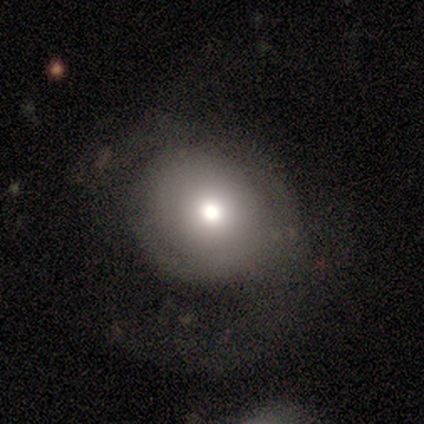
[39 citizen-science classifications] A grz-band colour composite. It shows a smooth galaxy with no disk features (62%) that is round (75%). Merging: none (63%).